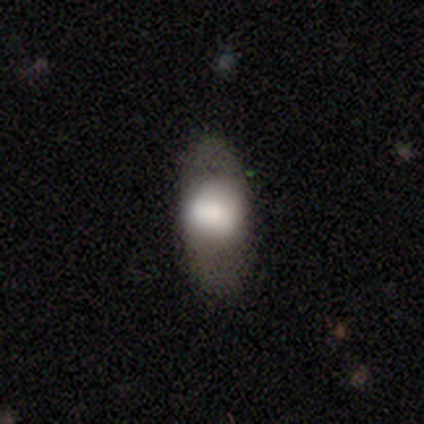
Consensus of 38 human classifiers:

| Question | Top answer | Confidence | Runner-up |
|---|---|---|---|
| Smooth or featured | smooth | 68% | featured or disk (29%) |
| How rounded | in between | 77% | round (23%) |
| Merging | none | 78% | minor disturbance (16%) |